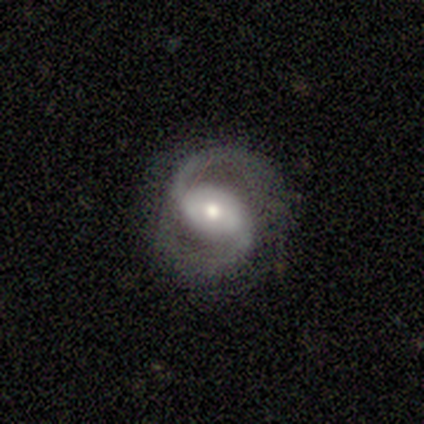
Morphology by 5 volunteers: smooth-or-featured: featured or disk: 100% | smooth: 0% | star or artifact: 0%
  disk-edge-on: no: 100% | yes: 0%
    bar: weak: 60% | strong: 20% | no: 20%
    has-spiral-arms: yes: 100% | no: 0%
      spiral-winding: medium: 80% | tight: 20% | loose: 0%
      spiral-arm-count: 2: 100% | 1: 0% | 3: 0% | 4: 0% | more than 4: 0% | can't tell: 0%
    bulge-size: moderate: 60% | large: 20% | small: 20% | dominant: 0% | none: 0%
  merging: none: 80% | minor disturbance: 20% | major disturbance: 0% | merger: 0%